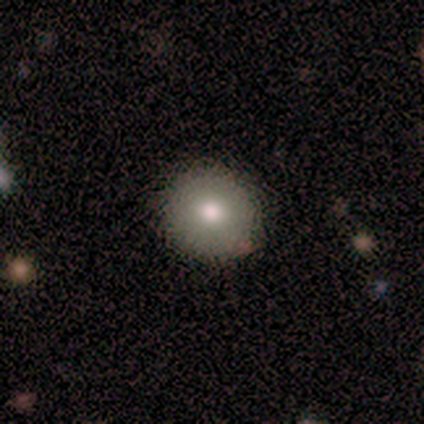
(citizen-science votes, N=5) Smooth or featured: smooth — 80% (featured or disk — 20%)
How rounded: round — 75% (in between — 25%)
Merging: none — 60% (minor disturbance — 40%)